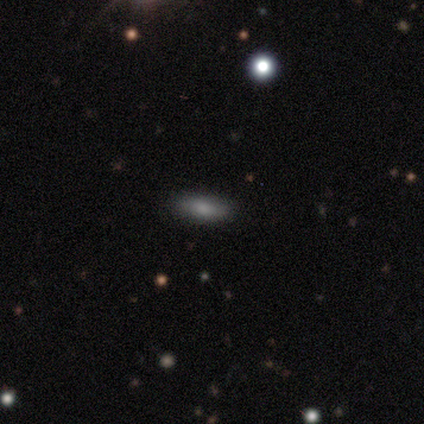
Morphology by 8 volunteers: A smooth galaxy with no disk features (62%) that is in between round and cigar-shaped (100%). Merging: none (100%).